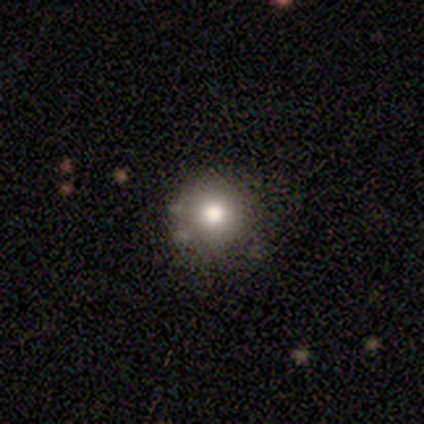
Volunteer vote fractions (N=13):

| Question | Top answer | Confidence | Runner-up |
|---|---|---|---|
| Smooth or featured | smooth | 92% | star or artifact (8%) |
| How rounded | round | 100% | — |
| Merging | none | 92% | major disturbance (8%) |